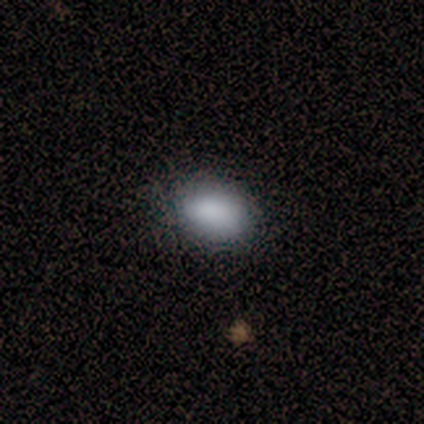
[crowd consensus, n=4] This appears to be a smooth galaxy with no disk features (100%) that is in between round and cigar-shaped (75%). Merging: none (75%).